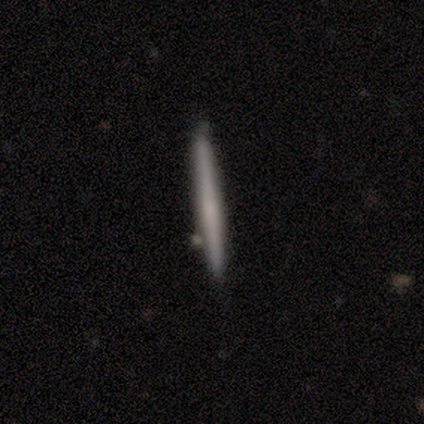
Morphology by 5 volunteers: smooth_or_featured: smooth (p=0.60) [alt: featured or disk p=0.20]
how_rounded: cigar-shaped (p=1.00)
merging: none (p=0.75) [alt: minor disturbance p=0.25]